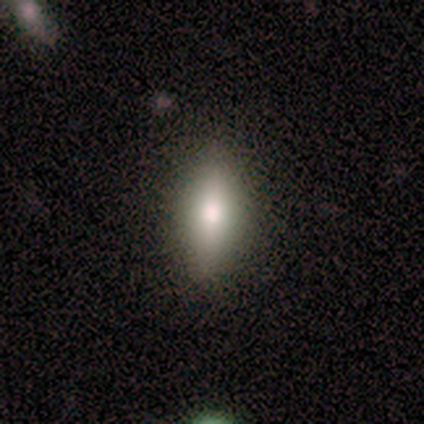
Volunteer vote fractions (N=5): smooth_or_featured: smooth (p=0.40) [tied with: featured or disk p=0.40]
how_rounded: cigar-shaped (p=1.00)
merging: none (p=0.75) [alt: major disturbance p=0.25]